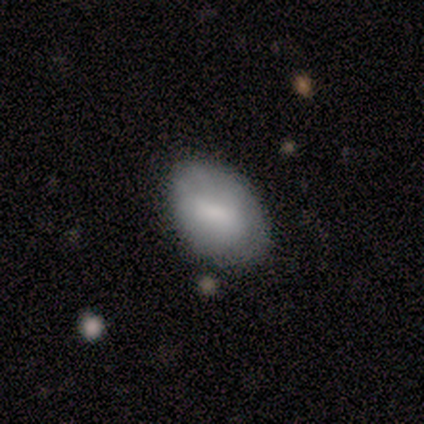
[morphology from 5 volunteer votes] Overall: smooth (100%). How rounded: in between (100%). Merging: none (60%; minor disturbance 20%).